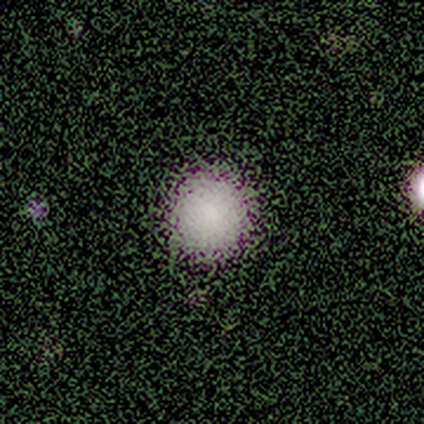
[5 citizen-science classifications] Smooth or featured? smooth (100%)
How rounded? round (100%)
Merging? none (100%)